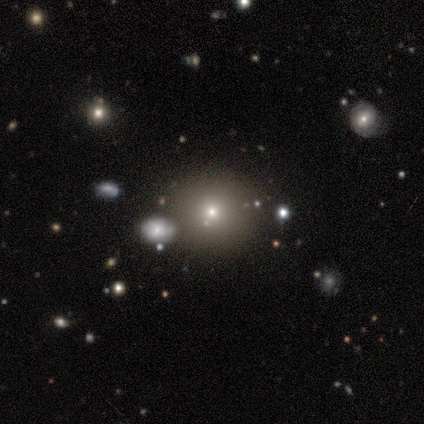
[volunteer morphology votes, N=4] type=smooth (75%); roundness=round (100%); merging=none (100%).